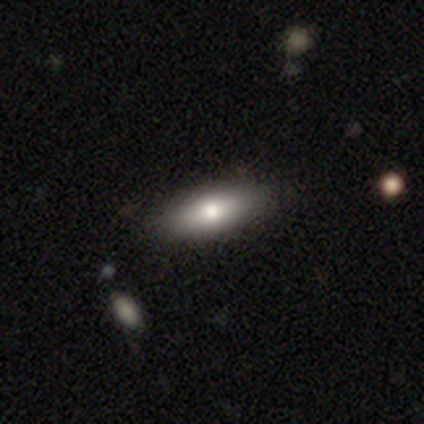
Smooth or featured?
  - smooth: 76% *
  - featured or disk: 24%
  - star or artifact: 0%
How rounded?
  - in between: 72% *
  - cigar-shaped: 24%
  - round: 3%
Merging?
  - none: 68% *
  - minor disturbance: 5%
  - major disturbance: 3%
  - merger: 3%